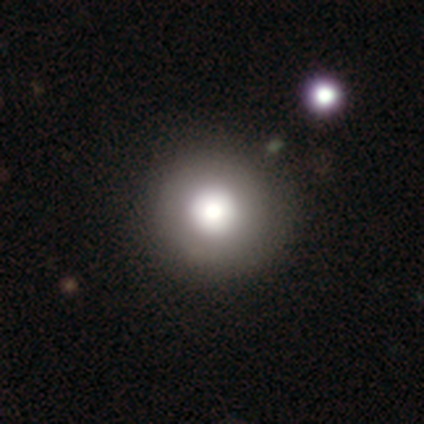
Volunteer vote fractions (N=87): A smooth galaxy with no disk features (70%) that is round (100%).

Vote fractions:
- Smooth or featured? smooth: 70% / featured or disk: 15% / star or artifact: 15%
- How rounded? round: 100% / in between: 0% / cigar-shaped: 0%
- Merging? none: 92% / minor disturbance: 7% / major disturbance: 1% / merger: 0%